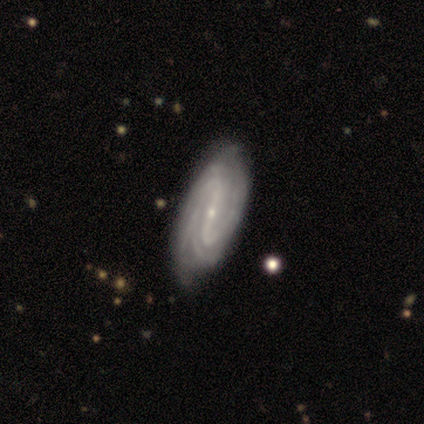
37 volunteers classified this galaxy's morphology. featured or disk 86%, smooth 8%, star or artifact 5%. Down the decision tree: edge-on disk — no (100%); bar — strong (75%); spiral arms — yes (97%); spiral arm count — 2 (29%, tied with can't tell); spiral winding — tight (52%); bulge size — small (72%); merging — none (49%).